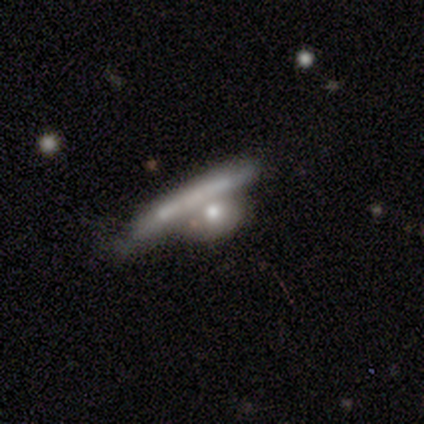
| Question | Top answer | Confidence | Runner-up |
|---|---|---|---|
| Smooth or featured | featured or disk | 59% | smooth (39%) |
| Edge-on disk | yes | 53% | no (47%) |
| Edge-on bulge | none | 56% | boxy (28%) |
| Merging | merger | 51% | minor disturbance (10%) |